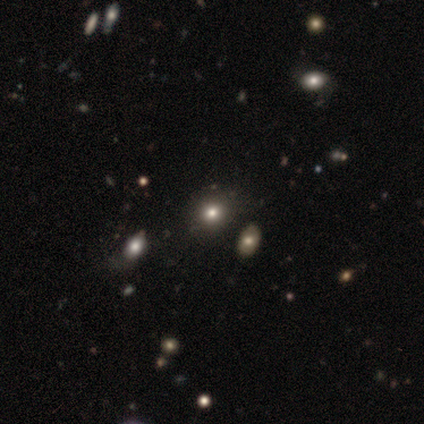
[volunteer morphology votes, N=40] Smooth or featured? 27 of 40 (68%) said smooth. How rounded? 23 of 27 (85%) said round. Merging? 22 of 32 (69%) said none.